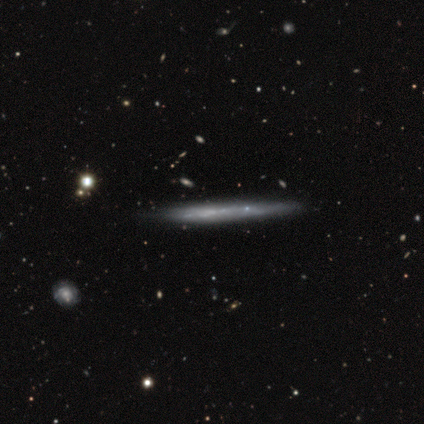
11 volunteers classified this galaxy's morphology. featured or disk 73%, smooth 27%, star or artifact 0%. Down the decision tree: edge-on disk — yes (100%); edge-on bulge — none (88%); merging — none (73%).